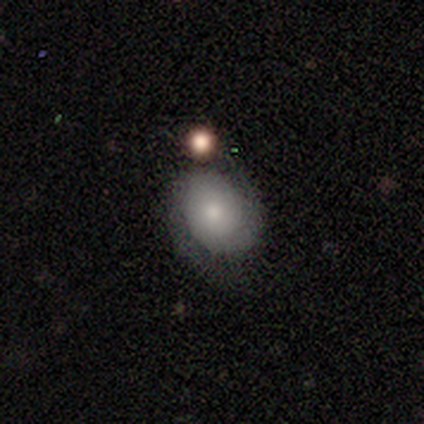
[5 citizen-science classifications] Smooth or featured: featured or disk — 80% (smooth — 20%)
Edge-on disk: no — 100%
Bar: no — 100%
Spiral arms: yes — 100%
Spiral winding: tight — 75% (loose — 25%)
Spiral arm count: 2 — 75% (can't tell — 25%)
Bulge size: moderate — 50% (small — 25%)
Merging: none — 60% (minor disturbance — 20%)